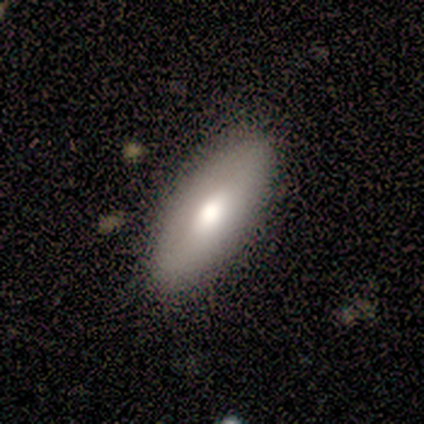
This is likely a smooth galaxy (67%). How rounded: clearly in between (100%). Merging: clearly none (100%).